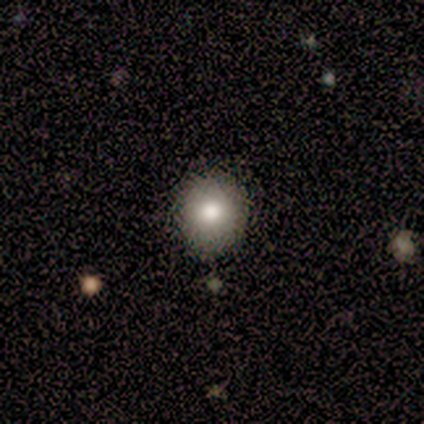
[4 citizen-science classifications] Smooth or featured? 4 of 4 (100%) said smooth. How rounded? 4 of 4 (100%) said round. Merging? 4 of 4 (100%) said none.